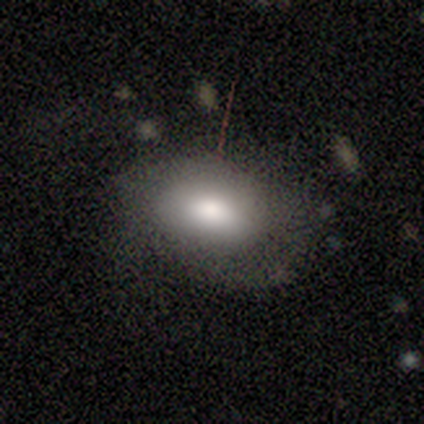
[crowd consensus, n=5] Smooth or featured?
  - smooth: 60% *
  - featured or disk: 40%
  - star or artifact: 0%
How rounded?
  - in between: 100% *
  - round: 0%
  - cigar-shaped: 0%
Merging?
  - none: 40% * (tied)
  - major disturbance: 40% * (tied)
  - minor disturbance: 20%
  - merger: 0%